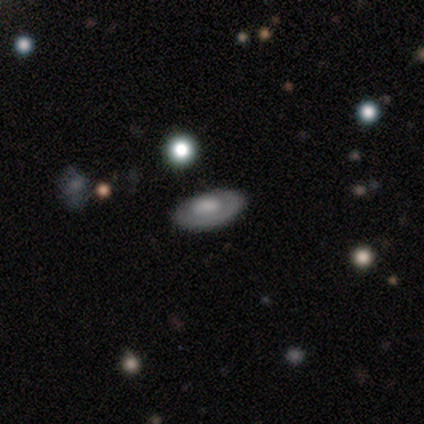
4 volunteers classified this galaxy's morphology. This is possibly a smooth galaxy (50%). How rounded: clearly in between (100%). Merging: clearly none (100%).